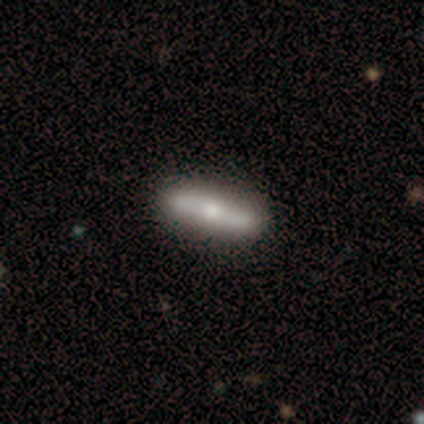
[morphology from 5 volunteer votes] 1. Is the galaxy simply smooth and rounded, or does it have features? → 60% featured or disk, 40% smooth, 0% star or artifact.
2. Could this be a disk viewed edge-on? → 100% no, 0% yes.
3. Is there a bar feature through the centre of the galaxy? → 100% no, 0% strong, 0% weak.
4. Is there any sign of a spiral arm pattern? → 67% yes, 33% no.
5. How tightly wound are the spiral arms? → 50% tight (tied), 50% medium (tied), 0% loose.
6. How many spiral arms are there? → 100% 2, 0% 1, 0% 3, 0% 4, 0% more than 4, 0% can't tell.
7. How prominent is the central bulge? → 33% large (tied), 33% moderate (tied), 33% small (tied), 0% dominant, 0% none.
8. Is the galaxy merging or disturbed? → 80% none, 20% minor disturbance, 0% major disturbance, 0% merger.